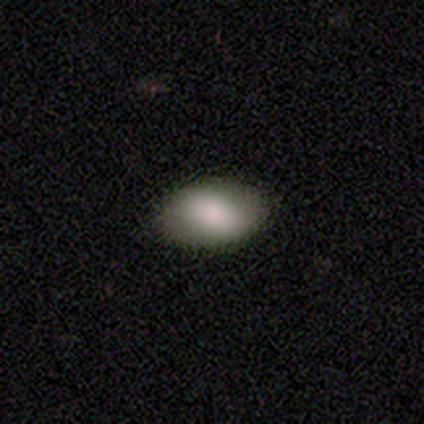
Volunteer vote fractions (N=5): A smooth galaxy with no disk features (80%) that is in between round and cigar-shaped (100%). Merging: none (100%).